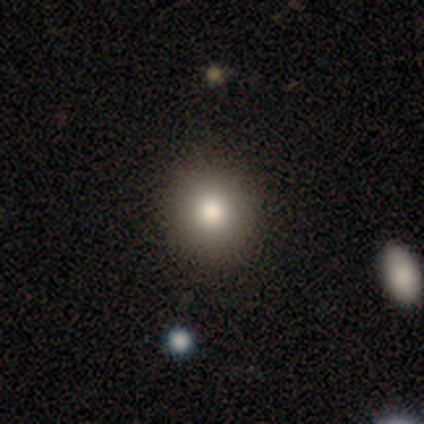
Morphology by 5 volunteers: A smooth galaxy with no disk features (80%) that is round (100%).

Vote fractions:
- Smooth or featured? smooth: 80% / star or artifact: 20% / featured or disk: 0%
- How rounded? round: 100% / in between: 0% / cigar-shaped: 0%
- Merging? none: 100% / minor disturbance: 0% / major disturbance: 0% / merger: 0%